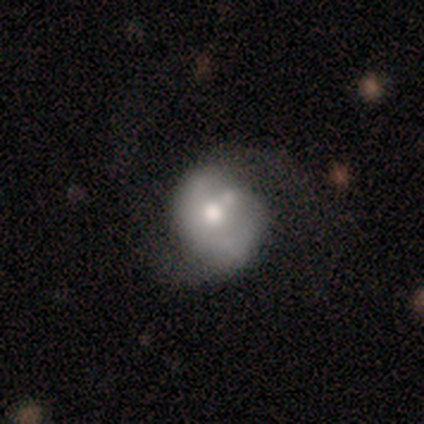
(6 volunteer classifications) Smooth or featured?
  - featured or disk: 50% *
  - smooth: 33%
  - star or artifact: 17%
Edge-on disk?
  - no: 100% *
  - yes: 0%
Bar?
  - weak: 67% *
  - no: 33%
  - strong: 0%
Spiral arms?
  - yes: 67% *
  - no: 33%
Spiral winding?
  - medium: 50% * (tied)
  - loose: 50% * (tied)
  - tight: 0%
Spiral arm count?
  - 2: 100% *
  - 1: 0%
  - 3: 0%
  - 4: 0%
  - more than 4: 0%
  - can't tell: 0%
Bulge size?
  - moderate: 100% *
  - dominant: 0%
  - large: 0%
  - small: 0%
  - none: 0%
Merging?
  - minor disturbance: 60% *
  - none: 20%
  - merger: 20%
  - major disturbance: 0%